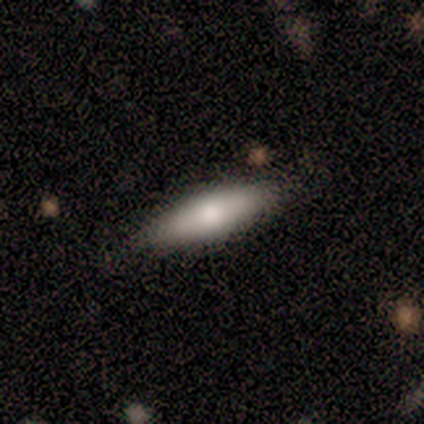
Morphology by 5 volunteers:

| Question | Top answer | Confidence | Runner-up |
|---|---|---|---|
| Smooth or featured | smooth | 100% | — |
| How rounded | in between | 60% | cigar-shaped (40%) |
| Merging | none | 60% | minor disturbance (40%) |